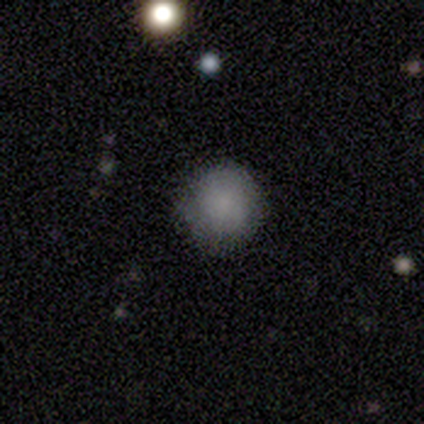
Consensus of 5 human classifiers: smooth 80%, featured or disk 20%, star or artifact 0%. Down the decision tree: how rounded — round (100%); merging — none (100%).